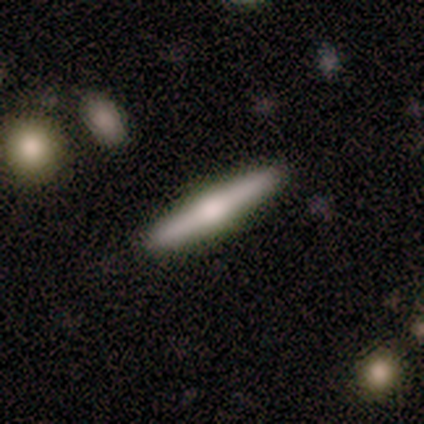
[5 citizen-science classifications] Smooth or featured? featured or disk (80%)
Edge-on disk? yes (100%)
Edge-on bulge? rounded (100%)
Merging? none (100%)